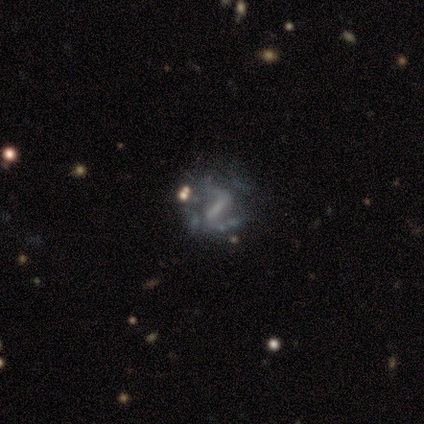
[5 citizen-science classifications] Smooth or featured: featured or disk — 60% (smooth — 20%)
Edge-on disk: no — 100%
Bar: strong — 33% (tied with weak — 33%; no — 33%)
Spiral arms: yes — 100%
Spiral winding: loose — 67% (medium — 33%)
Spiral arm count: can't tell — 67% (2 — 33%)
Bulge size: moderate — 33% (tied with small — 33%; none — 33%)
Merging: major disturbance — 50% (minor disturbance — 25%)